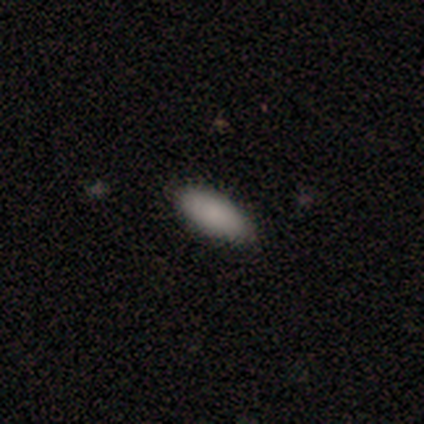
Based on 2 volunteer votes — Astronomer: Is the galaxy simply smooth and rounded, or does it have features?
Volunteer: smooth — 100%.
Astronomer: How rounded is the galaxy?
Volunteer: in between — 100%.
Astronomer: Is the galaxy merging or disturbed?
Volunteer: none — 100%.